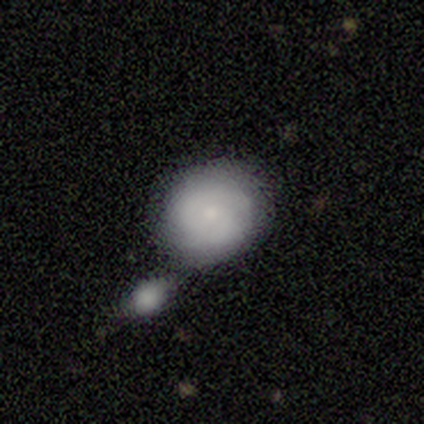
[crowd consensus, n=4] smooth_or_featured: smooth (p=0.50) [tied with: featured or disk p=0.50]
how_rounded: round (p=1.00)
merging: none (p=0.50) [tied with: merger p=0.50]